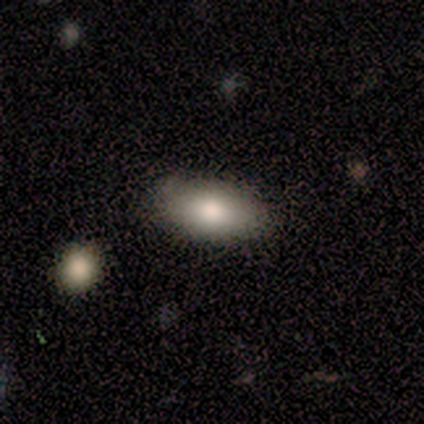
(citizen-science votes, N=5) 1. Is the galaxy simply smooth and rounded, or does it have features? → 80% smooth, 20% featured or disk, 0% star or artifact.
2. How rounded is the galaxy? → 100% in between, 0% round, 0% cigar-shaped.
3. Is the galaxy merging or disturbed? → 100% none, 0% minor disturbance, 0% major disturbance, 0% merger.